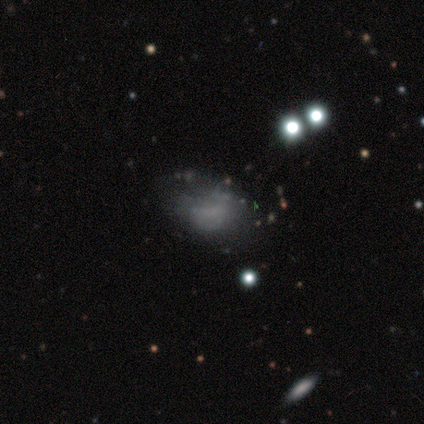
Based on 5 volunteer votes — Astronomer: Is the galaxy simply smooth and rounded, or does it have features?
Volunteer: smooth — 40%, tied with featured or disk at 40%.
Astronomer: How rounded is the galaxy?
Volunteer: in between — 100%.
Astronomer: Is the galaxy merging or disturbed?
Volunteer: none — 50%.